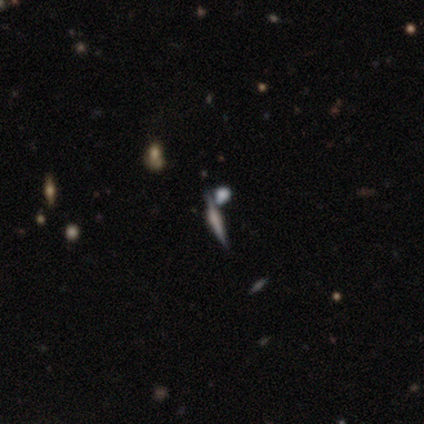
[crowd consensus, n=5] Morphology: type=featured or disk (80%); edge-on=yes (100%); edge-on bulge=boxy (50%); merging=none (60%).